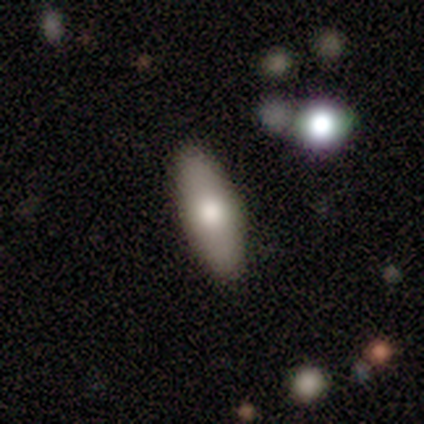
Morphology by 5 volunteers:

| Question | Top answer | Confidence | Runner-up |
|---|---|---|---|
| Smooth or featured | smooth | 100% | — |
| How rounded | in between | 60% | cigar-shaped (40%) |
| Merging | none | 80% | minor disturbance (20%) |